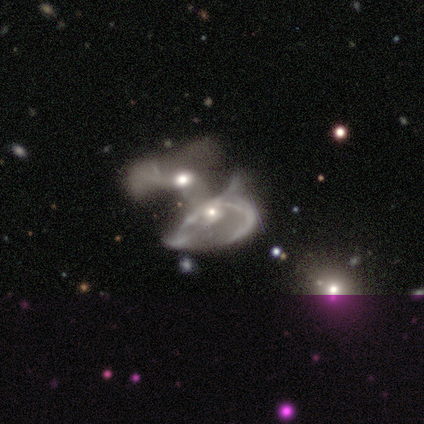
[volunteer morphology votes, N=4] featured or disk 100%, smooth 0%, star or artifact 0%. Down the decision tree: edge-on disk — no (100%); bar — no (75%); spiral arms — yes (75%); spiral arm count — 2 (67%); spiral winding — medium (67%); bulge size — moderate (50%, tied with small); merging — merger (100%).